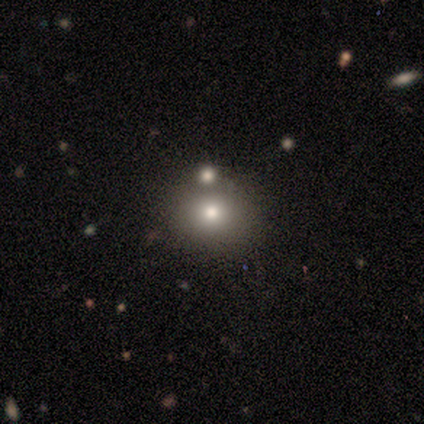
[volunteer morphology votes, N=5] This appears to be a smooth galaxy with no disk features (80%) that is round (75%). Merging: none (75%).